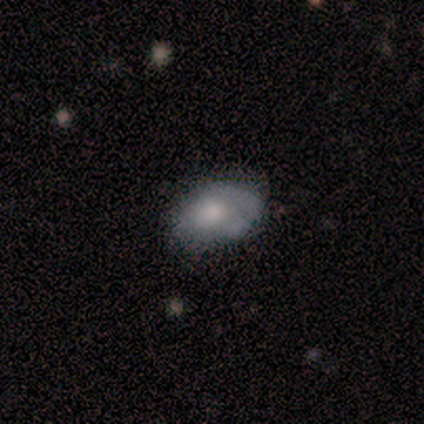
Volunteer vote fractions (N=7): Volunteers were most divided on "smooth or featured": smooth: 57%, featured or disk: 43%, star or artifact: 0%. More confident: how rounded — in between (75%); merging — minor disturbance (57%).